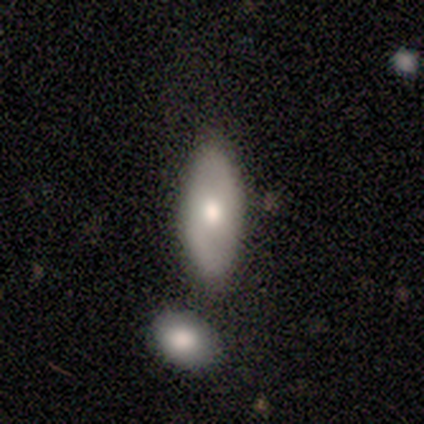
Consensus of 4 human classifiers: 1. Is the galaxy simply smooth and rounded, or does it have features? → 50% smooth (tied), 50% featured or disk (tied), 0% star or artifact.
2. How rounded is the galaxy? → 50% in between (tied), 50% cigar-shaped (tied), 0% round.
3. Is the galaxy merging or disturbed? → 75% none, 25% minor disturbance, 0% major disturbance, 0% merger.